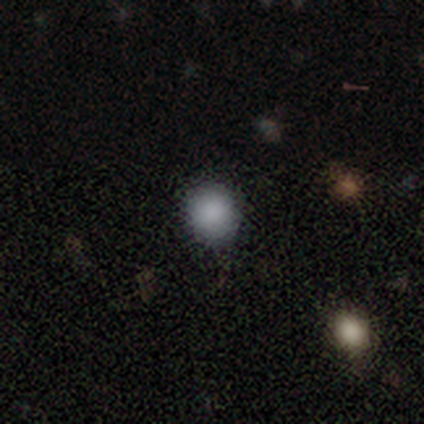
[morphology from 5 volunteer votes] A smooth galaxy with no disk features (100%) that is round (80%). Merging: none (100%).